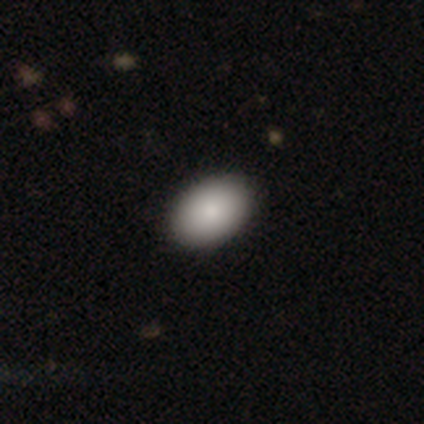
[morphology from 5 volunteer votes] Smooth or featured? 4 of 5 (80%) said smooth. How rounded? 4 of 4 (100%) said in between. Merging? 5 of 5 (100%) said none.